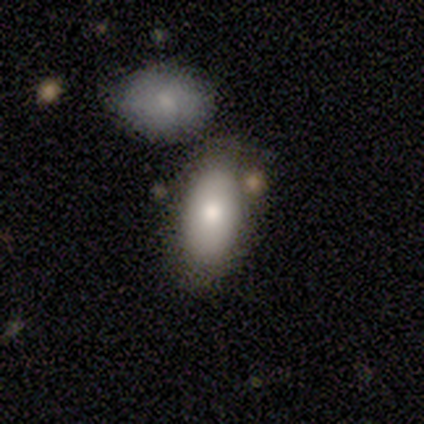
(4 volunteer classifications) Smooth or featured: smooth — 75% (featured or disk — 25%)
How rounded: in between — 100%
Merging: none — 75% (minor disturbance — 25%)